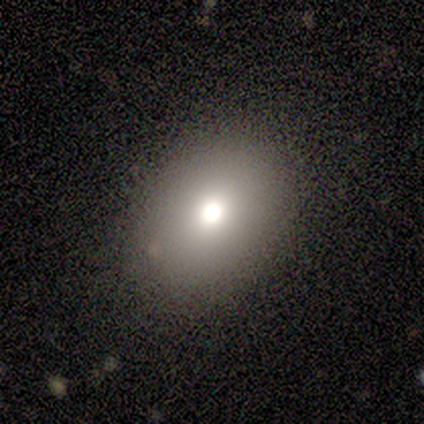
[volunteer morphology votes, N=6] This is clearly a smooth galaxy (100%). How rounded: clearly in between (83%). Merging: possibly none (50%, tied with minor disturbance).